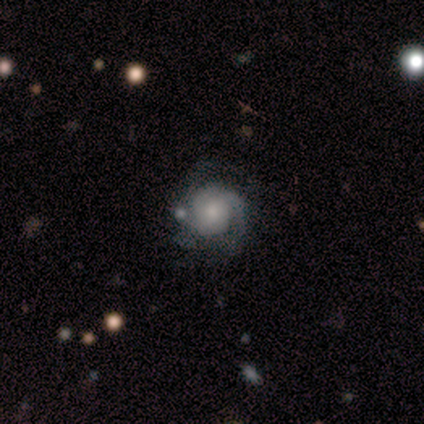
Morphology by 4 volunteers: A featured or disk galaxy (75%) with no bar (100%), 1 (33%, tied with 3 and can't tell) tight (67%) spiral arms (100%) and a moderate central bulge (67%).

Vote fractions:
- Smooth or featured? featured or disk: 75% / star or artifact: 25% / smooth: 0%
- Edge-on disk? no: 100% / yes: 0%
- Bar? no: 100% / strong: 0% / weak: 0%
- Spiral arms? yes: 100% / no: 0%
- Spiral winding? tight: 67% / medium: 33% / loose: 0%
- Spiral arm count? 1: 33% (tied) / 3: 33% (tied) / can't tell: 33% (tied) / 2: 0% / 4: 0% / more than 4: 0%
- Bulge size? moderate: 67% / none: 33% / dominant: 0% / large: 0% / small: 0%
- Merging? minor disturbance: 67% / none: 33% / major disturbance: 0% / merger: 0%